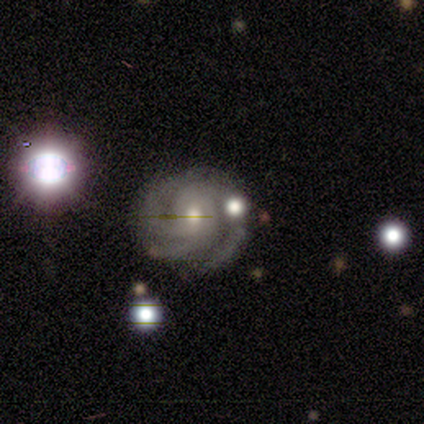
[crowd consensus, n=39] Smooth or featured: featured or disk — 85% (smooth — 10%)
Edge-on disk: no — 97% (yes — 3%)
Bar: no — 66% (weak — 31%)
Spiral arms: yes — 97% (no — 3%)
Spiral winding: tight — 68% (medium — 26%)
Spiral arm count: 3 — 61% (2 — 26%)
Bulge size: moderate — 50% (small — 47%)
Merging: none — 59% (minor disturbance — 11%)